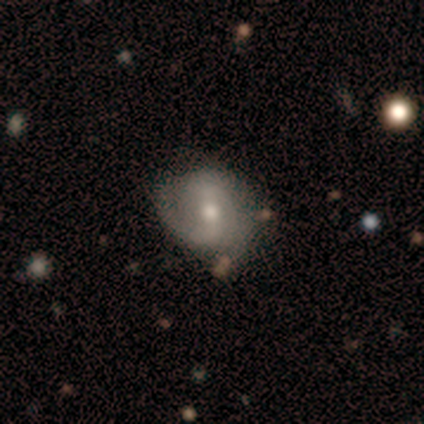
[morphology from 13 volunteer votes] Smooth or featured?
  - featured or disk: 62% *
  - smooth: 38%
  - star or artifact: 0%
Edge-on disk?
  - no: 88% *
  - yes: 12%
Bar?
  - weak: 57% *
  - strong: 29%
  - no: 14%
Spiral arms?
  - yes: 86% *
  - no: 14%
Spiral winding?
  - medium: 67% *
  - tight: 17%
  - loose: 17%
Spiral arm count?
  - 2: 83% *
  - can't tell: 17%
  - 1: 0%
  - 3: 0%
  - 4: 0%
  - more than 4: 0%
Bulge size?
  - moderate: 86% *
  - small: 14%
  - dominant: 0%
  - large: 0%
  - none: 0%
Merging?
  - none: 62% *
  - minor disturbance: 31%
  - major disturbance: 8%
  - merger: 0%